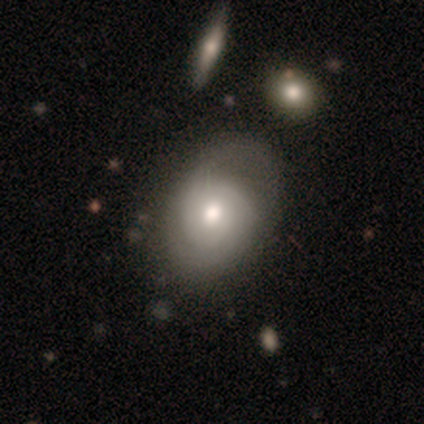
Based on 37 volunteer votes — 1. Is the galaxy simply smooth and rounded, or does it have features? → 65% featured or disk, 32% smooth, 3% star or artifact.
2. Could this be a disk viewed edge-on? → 96% no, 4% yes.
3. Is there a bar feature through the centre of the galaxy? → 91% no, 4% strong, 4% weak.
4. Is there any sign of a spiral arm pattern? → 96% yes, 4% no.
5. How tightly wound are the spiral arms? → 59% medium, 36% tight, 5% loose.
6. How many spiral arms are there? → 59% 2, 36% can't tell, 5% 3, 0% 1, 0% 4, 0% more than 4.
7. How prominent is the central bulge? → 74% moderate, 22% large, 4% small, 0% dominant, 0% none.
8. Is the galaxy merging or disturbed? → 47% none, 17% minor disturbance, 14% major disturbance, 6% merger.